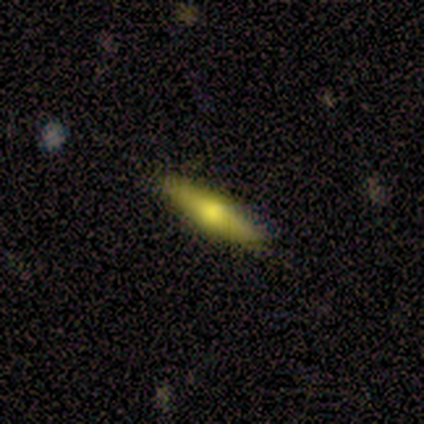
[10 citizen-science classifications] This appears to be a featured or disk galaxy (70%) viewed edge-on (100%) with a rounded central bulge (100%). Merging: none (90%).